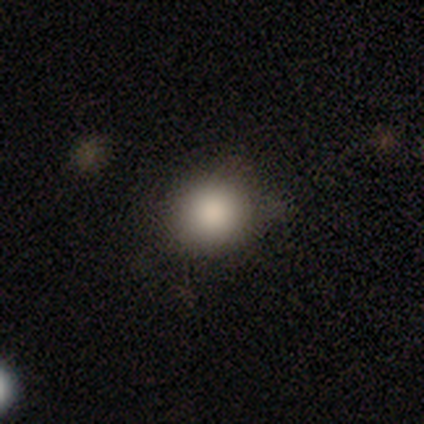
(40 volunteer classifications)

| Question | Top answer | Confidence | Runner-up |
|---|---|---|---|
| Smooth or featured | smooth | 85% | star or artifact (12%) |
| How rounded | round | 88% | in between (12%) |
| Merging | none | 89% | minor disturbance (11%) |